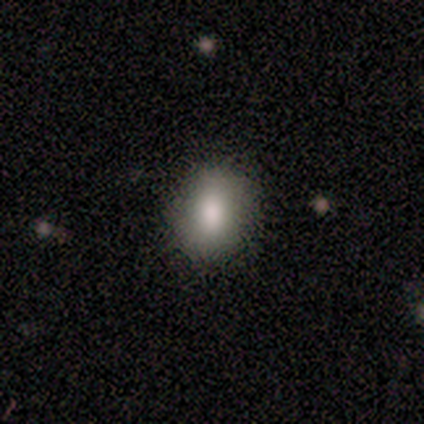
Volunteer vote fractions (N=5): Volunteers were most divided on "how rounded": in between: 60%, round: 40%, cigar-shaped: 0%. More confident: smooth or featured — smooth (100%); merging — none (100%).